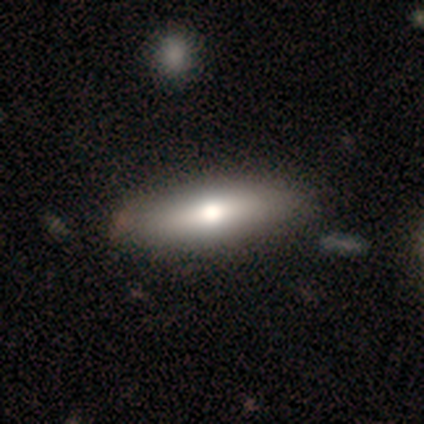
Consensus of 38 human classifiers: smooth_or_featured: smooth (p=0.79) [alt: featured or disk p=0.18]
how_rounded: in between (p=0.60) [alt: cigar-shaped p=0.40]
merging: none (p=0.65) [alt: major disturbance p=0.08]